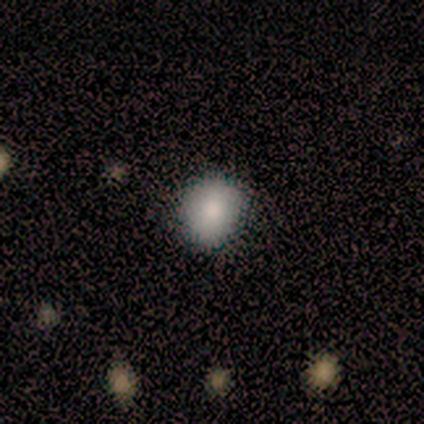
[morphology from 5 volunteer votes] Smooth or featured?
  - smooth: 80% *
  - star or artifact: 20%
  - featured or disk: 0%
How rounded?
  - round: 50% * (tied)
  - in between: 50% * (tied)
  - cigar-shaped: 0%
Merging?
  - none: 100% *
  - minor disturbance: 0%
  - major disturbance: 0%
  - merger: 0%